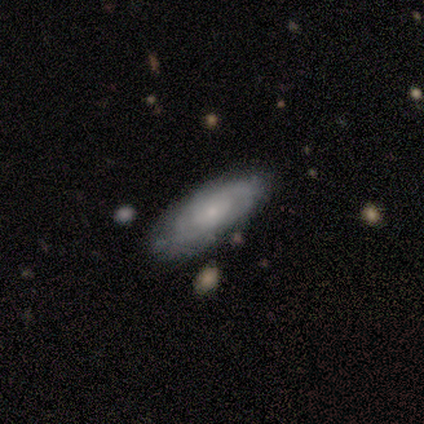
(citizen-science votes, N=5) featured or disk 60%, smooth 40%, star or artifact 0%. Down the decision tree: edge-on disk — no (67%); bar — weak (50%, tied with no); spiral arms — yes (100%); spiral arm count — 2 (50%, tied with 3); spiral winding — tight (50%, tied with loose); bulge size — small (100%); merging — none (40%, tied with minor disturbance).